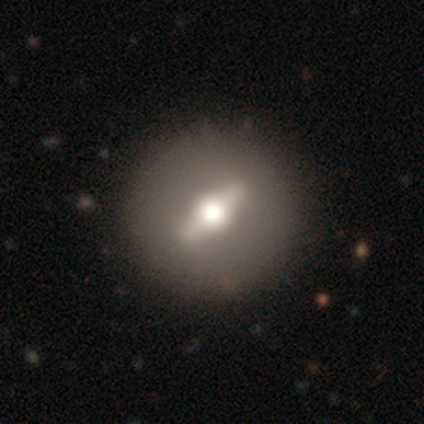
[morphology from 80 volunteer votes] This appears to be a featured or disk galaxy (74%) viewed edge-on (54%) with a rounded central bulge (91%). Merging: none (47%).